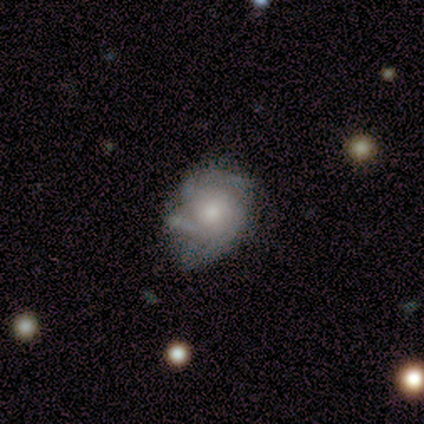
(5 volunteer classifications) Q: Smooth or featured?
A: featured or disk (80%); runner-up: smooth (20%)
Q: Edge-on disk?
A: no (100%)
Q: Bar?
A: no (100%)
Q: Spiral arms?
A: yes (100%)
Q: Spiral winding?
A: tight (75%); runner-up: medium (25%)
Q: Spiral arm count?
A: 3 (75%); runner-up: 1 (25%)
Q: Bulge size?
A: moderate (75%); runner-up: small (25%)
Q: Merging?
A: minor disturbance (60%); runner-up: none (20%)